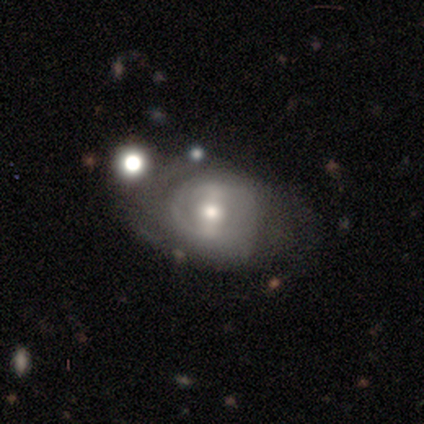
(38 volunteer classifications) Q: Smooth or featured?
A: featured or disk (82%); runner-up: smooth (13%)
Q: Edge-on disk?
A: no (94%); runner-up: yes (6%)
Q: Bar?
A: weak (45%); runner-up: strong (34%)
Q: Spiral arms?
A: yes (59%); runner-up: no (41%)
Q: Spiral winding?
A: medium (59%); runner-up: loose (24%)
Q: Spiral arm count?
A: can't tell (53%); runner-up: 2 (35%)
Q: Bulge size?
A: moderate (69%); runner-up: small (17%)
Q: Merging?
A: none (53%); runner-up: major disturbance (22%)